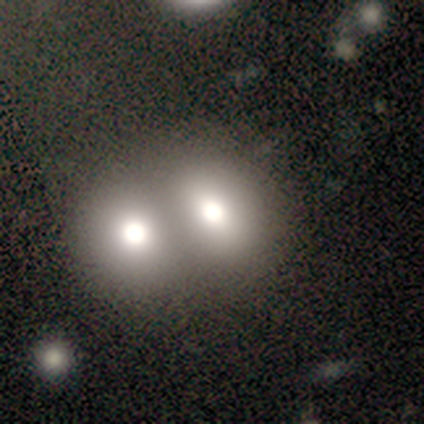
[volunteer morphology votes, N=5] A smooth galaxy with no disk features (60%) that is in between round and cigar-shaped (100%).

Vote fractions:
- Smooth or featured? smooth: 60% / featured or disk: 40% / star or artifact: 0%
- How rounded? in between: 100% / round: 0% / cigar-shaped: 0%
- Merging? merger: 100% / none: 0% / minor disturbance: 0% / major disturbance: 0%